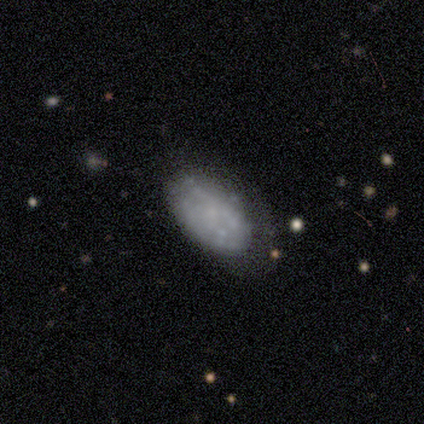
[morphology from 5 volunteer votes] Overall: featured or disk (60%; smooth 20%). Edge-on disk: no (100%). Bar: no (100%). Spiral arms: no (100%). Bulge size: none (67%; small 33%). Merging: none (50%, tied with minor disturbance).